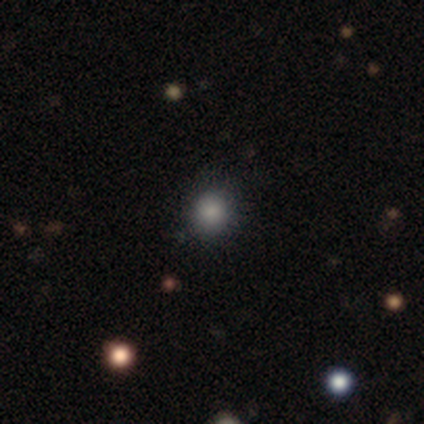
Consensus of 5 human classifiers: Overall: smooth (60%; star or artifact 40%). How rounded: round (100%). Merging: minor disturbance (67%; none 33%).